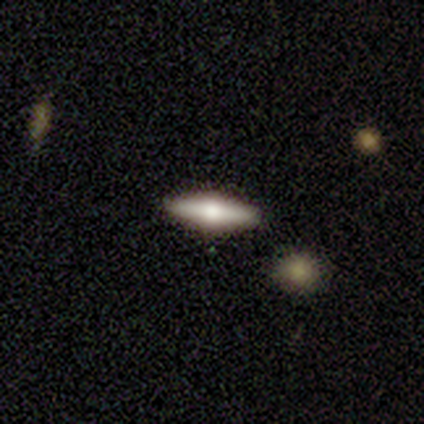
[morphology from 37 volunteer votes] Q: Smooth or featured?
A: featured or disk (59%); runner-up: smooth (38%)
Q: Edge-on disk?
A: yes (100%)
Q: Edge-on bulge?
A: rounded (91%); runner-up: boxy (5%)
Q: Merging?
A: none (92%); runner-up: minor disturbance (6%)